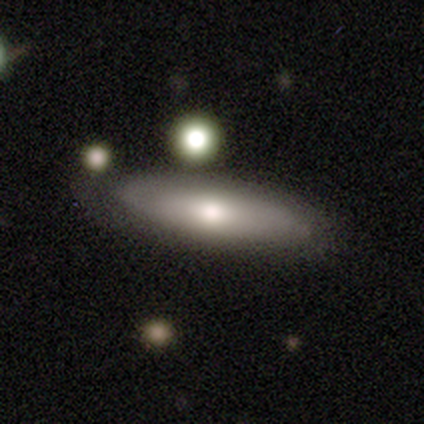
Smooth or featured?
  - featured or disk: 57% *
  - smooth: 43%
  - star or artifact: 0%
Edge-on disk?
  - yes: 75% *
  - no: 25%
Edge-on bulge?
  - rounded: 67% *
  - none: 33%
  - boxy: 0%
Merging?
  - none: 71% *
  - minor disturbance: 14%
  - major disturbance: 14%
  - merger: 0%